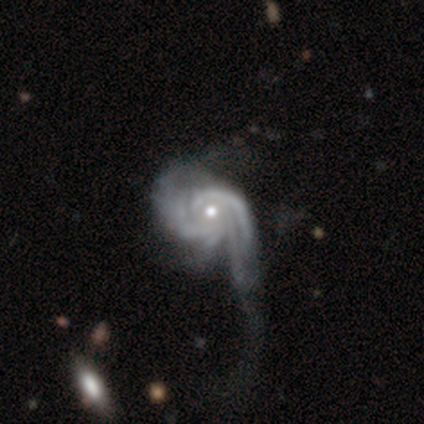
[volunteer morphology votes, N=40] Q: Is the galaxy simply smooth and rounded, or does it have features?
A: featured or disk — 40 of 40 (100%).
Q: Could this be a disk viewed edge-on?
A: no — 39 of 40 (98%).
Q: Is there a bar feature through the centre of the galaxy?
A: no — 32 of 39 (82%).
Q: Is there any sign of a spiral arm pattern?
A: yes — 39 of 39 (100%).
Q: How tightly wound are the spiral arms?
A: medium — 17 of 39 (44%).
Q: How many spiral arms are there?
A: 2 — 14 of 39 (36%).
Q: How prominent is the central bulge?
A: moderate — 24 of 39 (62%).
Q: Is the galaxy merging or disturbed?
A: major disturbance — 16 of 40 (40%).